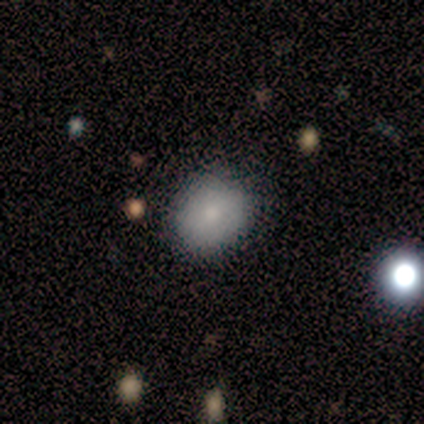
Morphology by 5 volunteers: This is likely a smooth galaxy (60%). How rounded: clearly round (100%). Merging: likely minor disturbance (67%).